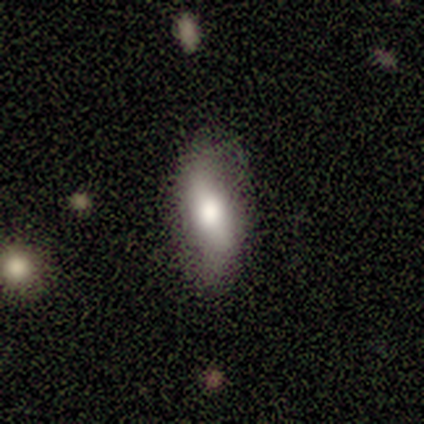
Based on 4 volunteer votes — smooth_or_featured: smooth (p=0.75) [alt: featured or disk p=0.25]
how_rounded: in between (p=0.67) [alt: cigar-shaped p=0.33]
merging: none (p=0.75) [alt: minor disturbance p=0.25]